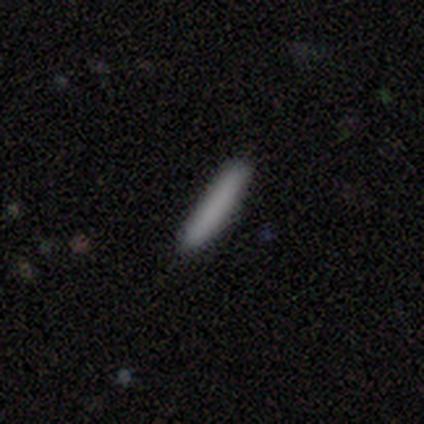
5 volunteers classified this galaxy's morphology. This is clearly a smooth galaxy (100%). How rounded: clearly cigar-shaped (80%). Merging: clearly none (80%).